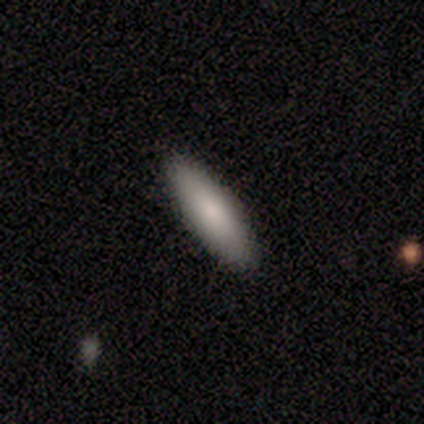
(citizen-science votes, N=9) This is clearly a smooth galaxy (89%). How rounded: possibly in between (50%, tied with cigar-shaped). Merging: likely none (75%).